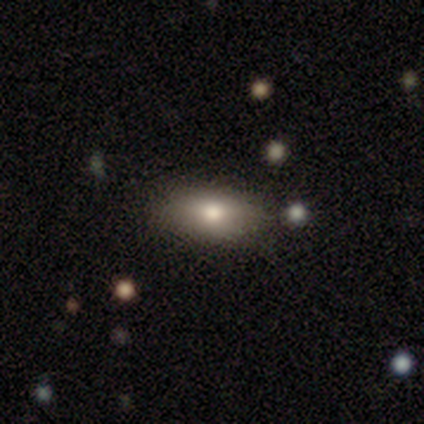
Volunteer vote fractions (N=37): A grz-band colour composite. It shows a smooth galaxy with no disk features (70%) that is in between round and cigar-shaped (77%). Merging: none (85%).